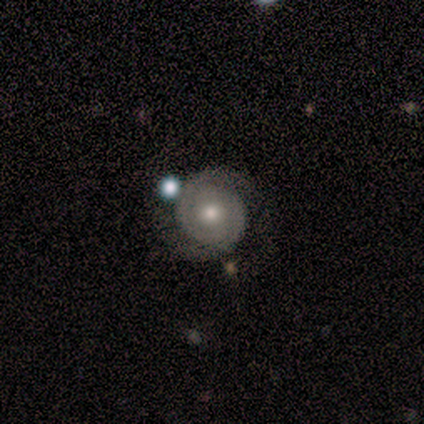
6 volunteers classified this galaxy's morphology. smooth-or-featured: featured or disk: 83% | smooth: 17% | star or artifact: 0%
  disk-edge-on: no: 100% | yes: 0%
    bar: no: 60% | weak: 40% | strong: 0%
    has-spiral-arms: yes: 100% | no: 0%
      spiral-winding: tight: 60% | medium: 40% | loose: 0%
      spiral-arm-count: 2: 100% | 1: 0% | 3: 0% | 4: 0% | more than 4: 0% | can't tell: 0%
    bulge-size: small: 60% | moderate: 40% | dominant: 0% | large: 0% | none: 0%
  merging: none: 100% | minor disturbance: 0% | major disturbance: 0% | merger: 0%